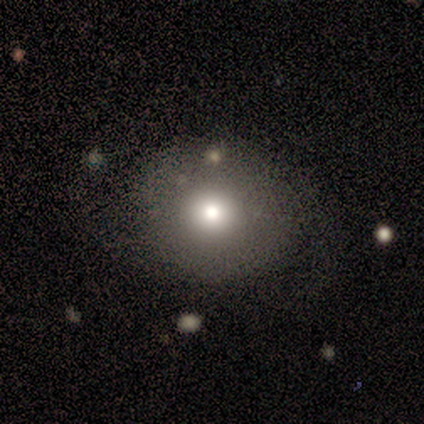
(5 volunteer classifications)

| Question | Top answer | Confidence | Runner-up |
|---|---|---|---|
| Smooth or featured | smooth | 80% | star or artifact (20%) |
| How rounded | round | 50% | tied: in between (50%) |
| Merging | none | 75% | minor disturbance (25%) |